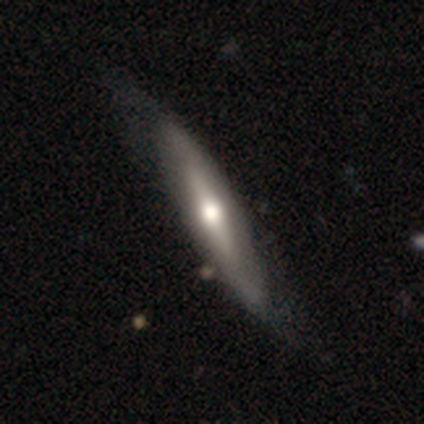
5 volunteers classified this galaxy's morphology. Volunteers were most divided on "smooth or featured" (2-way tie): smooth: 40%, featured or disk: 40%, star or artifact: 20%; "merging" (2-way tie): none: 50%, minor disturbance: 50%, major disturbance: 0%, merger: 0%. More confident: how rounded — cigar-shaped (100%).